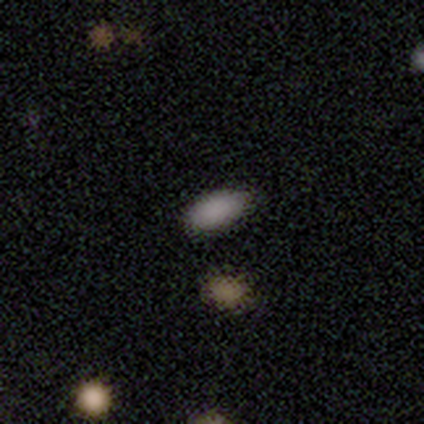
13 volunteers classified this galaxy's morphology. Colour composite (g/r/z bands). It shows a smooth galaxy with no disk features (85%) that is in between round and cigar-shaped (100%). Merging: none (82%).